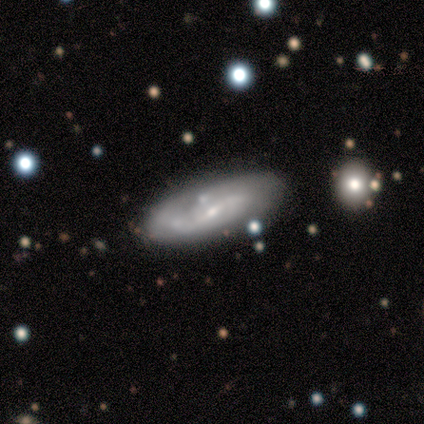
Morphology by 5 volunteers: Smooth or featured?
  - featured or disk: 60% *
  - smooth: 40%
  - star or artifact: 0%
Edge-on disk?
  - no: 100% *
  - yes: 0%
Bar?
  - strong: 67% *
  - weak: 33%
  - no: 0%
Spiral arms?
  - no: 67% *
  - yes: 33%
Bulge size?
  - small: 100% *
  - dominant: 0%
  - large: 0%
  - moderate: 0%
  - none: 0%
Merging?
  - none: 80% *
  - minor disturbance: 20%
  - major disturbance: 0%
  - merger: 0%